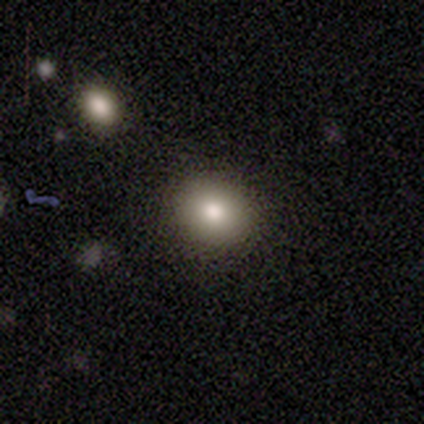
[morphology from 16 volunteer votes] smooth_or_featured: smooth (p=0.75) [alt: featured or disk p=0.12]
how_rounded: round (p=0.92) [alt: in between p=0.08]
merging: none (p=1.00)